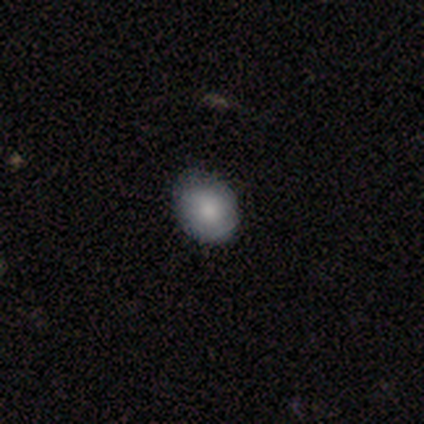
A featured or disk galaxy (50%) with a weak bar (50%, tied with no), no spiral arms (100%) and a moderate central bulge (50%, tied with small).

Vote fractions:
- Smooth or featured? featured or disk: 50% / smooth: 25% / star or artifact: 25%
- Edge-on disk? no: 100% / yes: 0%
- Bar? weak: 50% (tied) / no: 50% (tied) / strong: 0%
- Spiral arms? no: 100% / yes: 0%
- Bulge size? moderate: 50% (tied) / small: 50% (tied) / dominant: 0% / large: 0% / none: 0%
- Merging? none: 100% / minor disturbance: 0% / major disturbance: 0% / merger: 0%